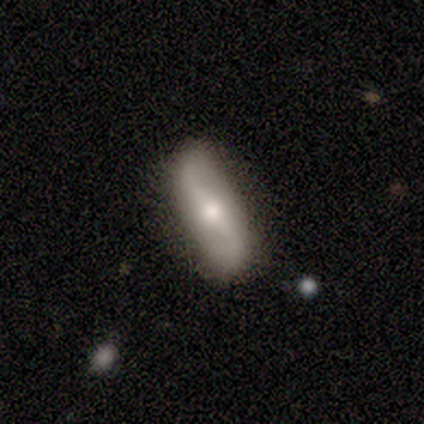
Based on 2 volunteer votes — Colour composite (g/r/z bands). It shows a featured or disk galaxy (50%, tied with star or artifact) with no bar (100%), 2 (100%) loose (100%) spiral arms (100%) and a moderate central bulge (100%). Merging: none (100%).